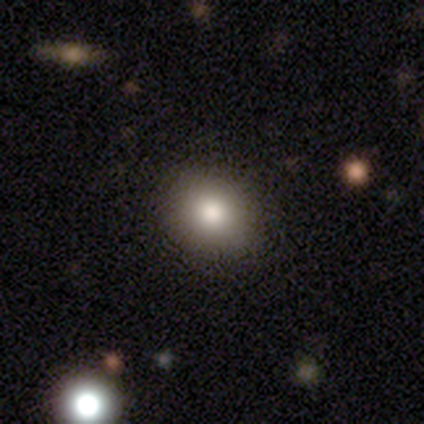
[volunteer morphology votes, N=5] Overall: smooth (80%). How rounded: round (75%). Merging: none (75%).